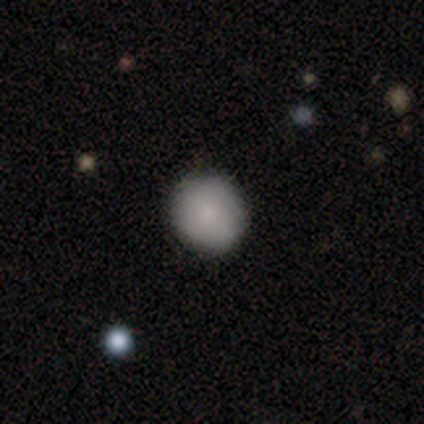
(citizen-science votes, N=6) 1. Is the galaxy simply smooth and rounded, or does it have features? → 100% smooth, 0% featured or disk, 0% star or artifact.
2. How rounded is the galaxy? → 100% round, 0% in between, 0% cigar-shaped.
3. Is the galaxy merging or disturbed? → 100% none, 0% minor disturbance, 0% major disturbance, 0% merger.